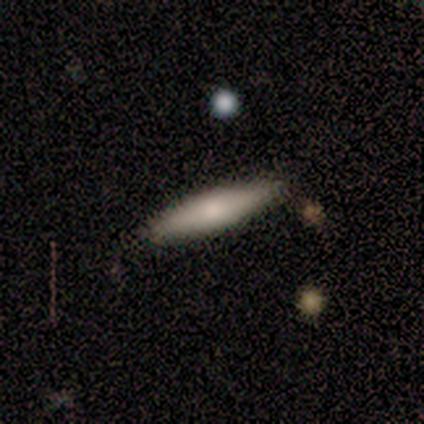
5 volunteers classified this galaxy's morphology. Q: Smooth or featured?
A: smooth (80%); runner-up: featured or disk (20%)
Q: How rounded?
A: cigar-shaped (75%); runner-up: in between (25%)
Q: Merging?
A: none (80%); runner-up: merger (20%)